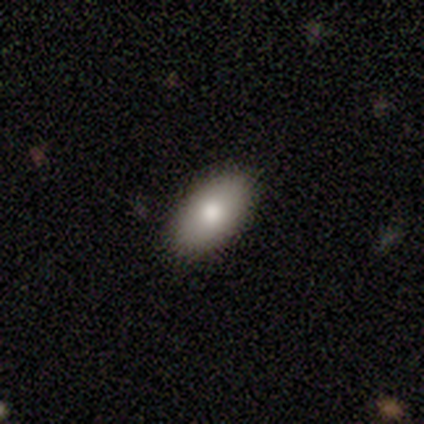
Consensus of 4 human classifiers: Overall: smooth (75%). How rounded: in between (67%; round 33%). Merging: none (100%).